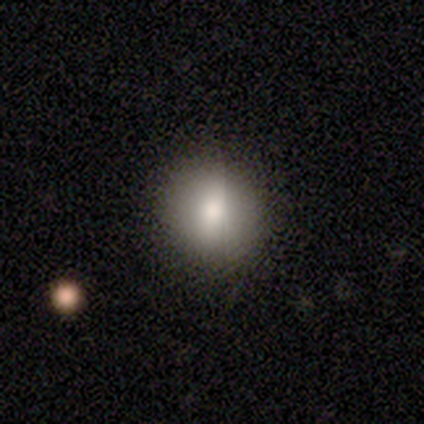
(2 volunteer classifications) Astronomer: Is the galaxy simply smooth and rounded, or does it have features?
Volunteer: smooth — 100%.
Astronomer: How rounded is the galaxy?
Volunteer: round — 50%, tied with in between at 50%.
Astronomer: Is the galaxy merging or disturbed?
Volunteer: none — 100%.